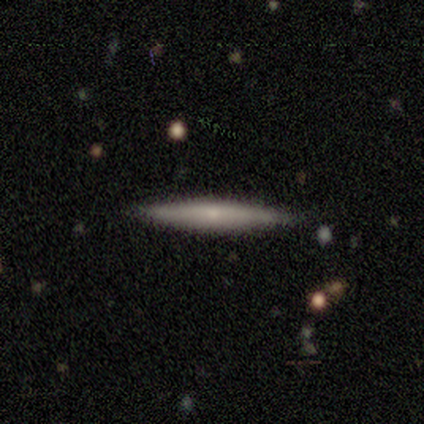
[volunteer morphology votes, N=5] Q: Smooth or featured?
A: featured or disk (80%); runner-up: smooth (20%)
Q: Edge-on disk?
A: yes (75%); runner-up: no (25%)
Q: Edge-on bulge?
A: rounded (100%)
Q: Merging?
A: none (100%)